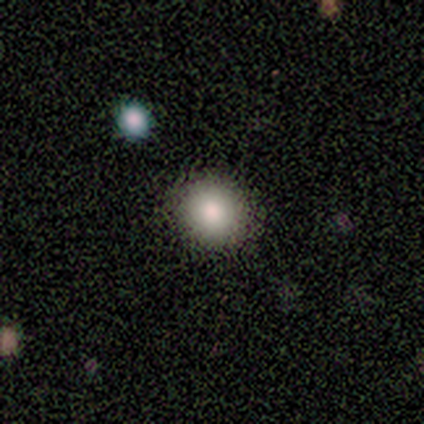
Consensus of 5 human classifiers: smooth 100%, featured or disk 0%, star or artifact 0%. Down the decision tree: how rounded — round (80%); merging — none (100%).